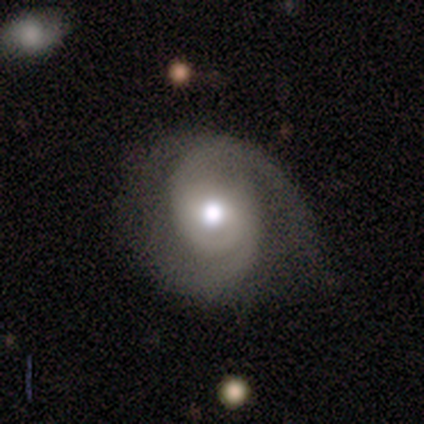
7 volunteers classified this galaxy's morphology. This is clearly a featured or disk galaxy (100%). It is clearly not viewed edge-on (100%). Bar: clearly no (86%). Spiral arm pattern: clearly yes (100%). Spiral arm count: likely 2 (71%). Spiral winding: likely medium (71%). Central bulge: likely moderate (71%). Merging: likely none (71%).